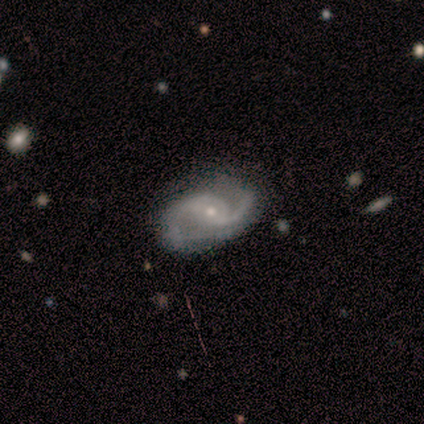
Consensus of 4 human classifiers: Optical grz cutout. It shows a featured or disk galaxy (100%) with a weak bar (50%, tied with no), 2 (100%) medium (75%) spiral arms (100%) and a small central bulge (100%). Merging: none (100%).